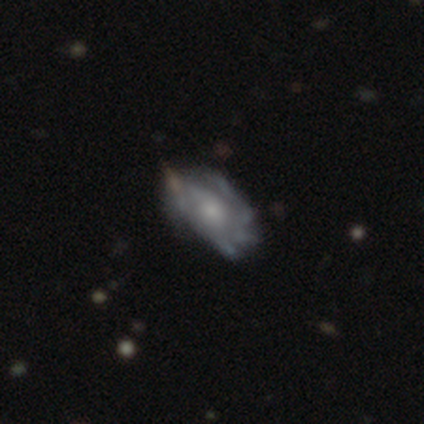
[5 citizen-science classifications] Volunteers were most divided on "spiral arms" (2-way tie): yes: 50%, no: 50%; "spiral winding" (2-way tie): tight: 50%, loose: 50%, medium: 0%; "spiral arm count" (2-way tie): 1: 50%, can't tell: 50%, 2: 0%, 3: 0%, 4: 0%, more than 4: 0%. Remaining: edge-on disk — no (100%); bar — no (100%); smooth or featured — featured or disk (80%); bulge size — moderate (75%); merging — minor disturbance (40%).